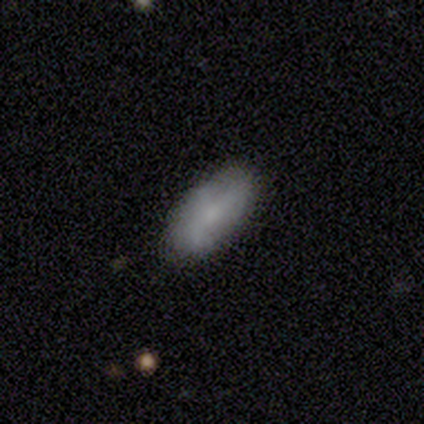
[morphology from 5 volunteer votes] This is marginally a smooth galaxy (40%, tied with featured or disk). How rounded: clearly in between (100%). Merging: likely none (75%).